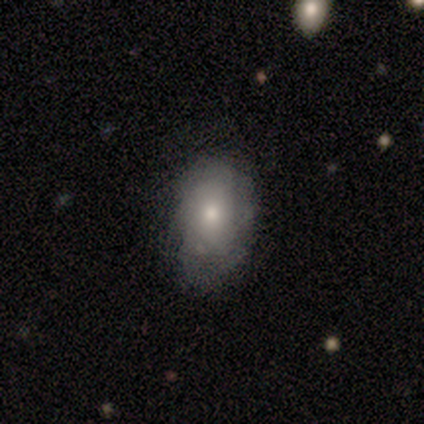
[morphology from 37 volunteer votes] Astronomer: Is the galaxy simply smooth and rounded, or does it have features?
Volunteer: smooth — 62%.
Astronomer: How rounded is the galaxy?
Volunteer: in between — 91%.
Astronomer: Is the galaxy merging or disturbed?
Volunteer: none — 74%.